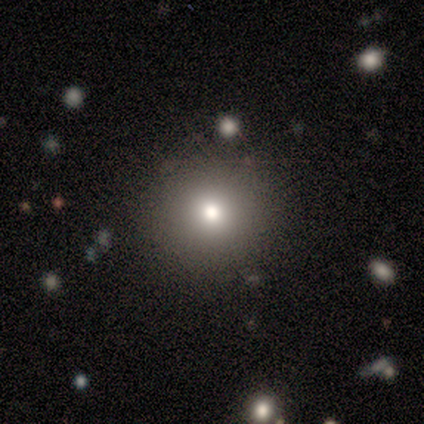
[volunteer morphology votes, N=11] This is clearly a smooth galaxy (82%). How rounded: clearly round (89%). Merging: likely none (78%).